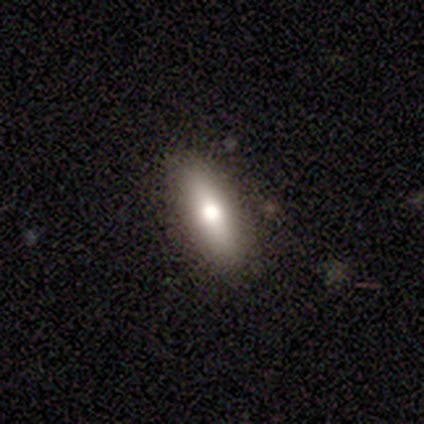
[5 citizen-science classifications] Overall: smooth (80%). How rounded: in between (75%). Merging: none (100%).